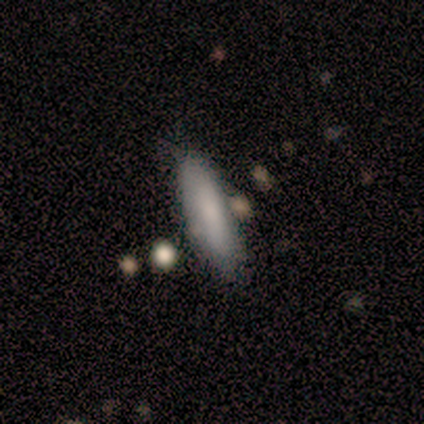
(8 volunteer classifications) Smooth or featured: smooth — 88% (featured or disk — 12%)
How rounded: cigar-shaped — 71% (in between — 29%)
Merging: none — 100%